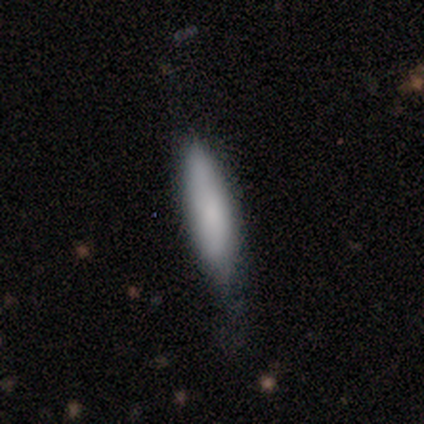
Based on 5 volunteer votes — This is clearly a smooth galaxy (80%). How rounded: likely cigar-shaped (75%). Merging: likely minor disturbance (60%).